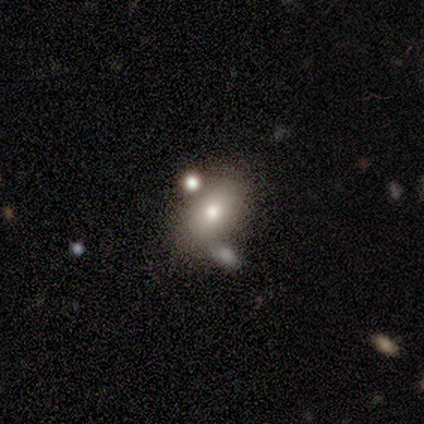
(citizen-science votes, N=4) Volunteers were most divided on "smooth or featured" (2-way tie): smooth: 50%, featured or disk: 50%, star or artifact: 0%. More confident: how rounded — in between (100%); merging — none (75%).